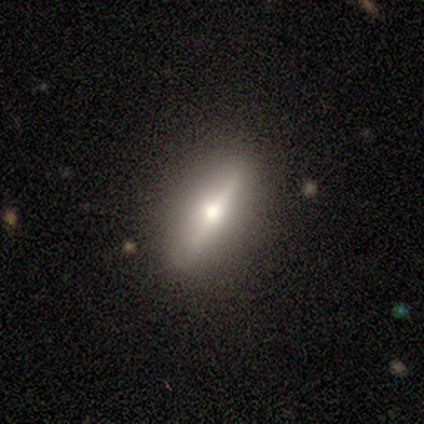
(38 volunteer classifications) This is likely a featured or disk galaxy (61%). It is clearly viewed edge-on (100%). Edge-on bulge: clearly rounded (100%). Merging: clearly none (86%).